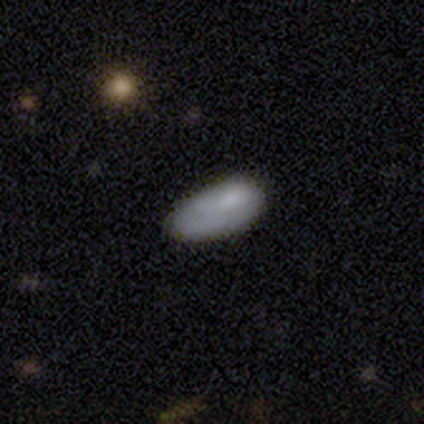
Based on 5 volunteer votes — This is likely a smooth galaxy (60%). How rounded: clearly in between (100%). Merging: marginally major disturbance (40%).